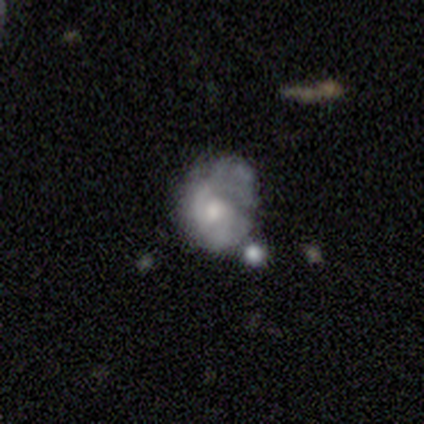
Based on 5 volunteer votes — featured or disk 60%, smooth 40%, star or artifact 0%. Down the decision tree: edge-on disk — no (100%); bar — no (67%); spiral arms — yes (100%); spiral arm count — can't tell (67%); spiral winding — tight (67%); bulge size — large (33%, tied with moderate and none); merging — minor disturbance (60%).